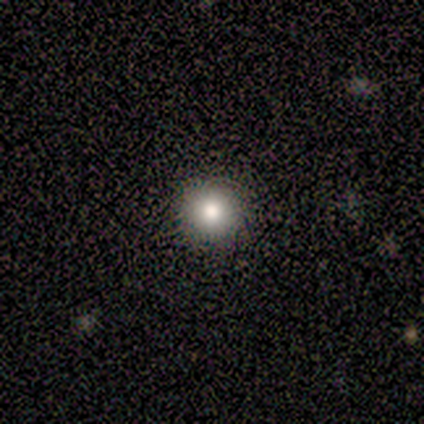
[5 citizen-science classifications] smooth 80%, featured or disk 20%, star or artifact 0%. Down the decision tree: how rounded — round (100%); merging — none (100%).